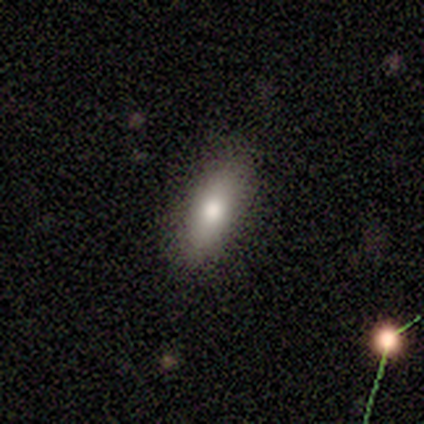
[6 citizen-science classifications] Overall: smooth (83%). How rounded: in between (80%). Merging: none (83%).